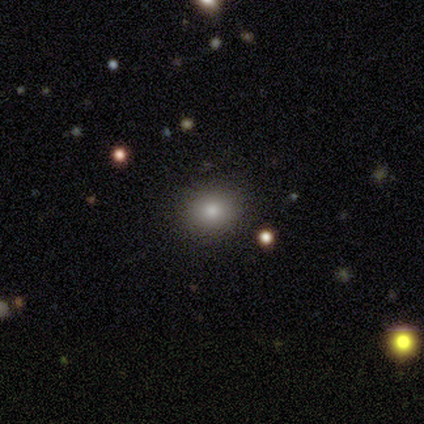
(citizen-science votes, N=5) Volunteers were most divided on "smooth or featured" (2-way tie): smooth: 40%, featured or disk: 40%, star or artifact: 20%. More confident: how rounded — round (100%); merging — none (100%).